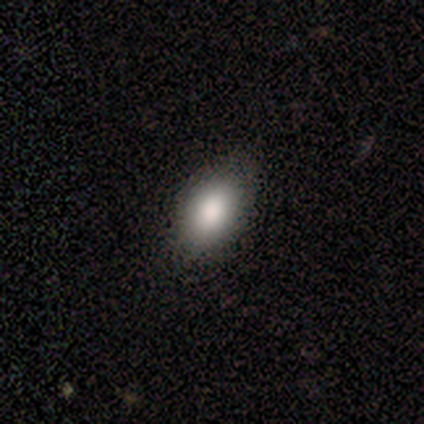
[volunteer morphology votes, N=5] This is clearly a smooth galaxy (100%). How rounded: clearly in between (100%). Merging: likely none (60%).